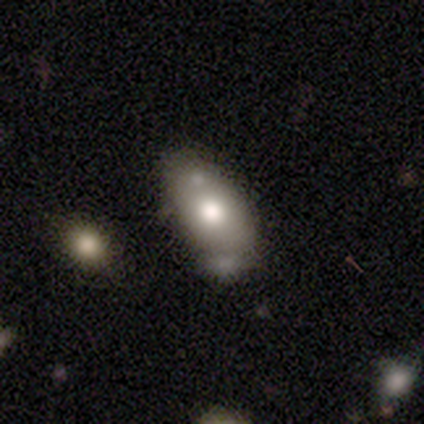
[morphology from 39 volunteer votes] A smooth galaxy with no disk features (74%) that is in between round and cigar-shaped (83%). Merging: none (53%).